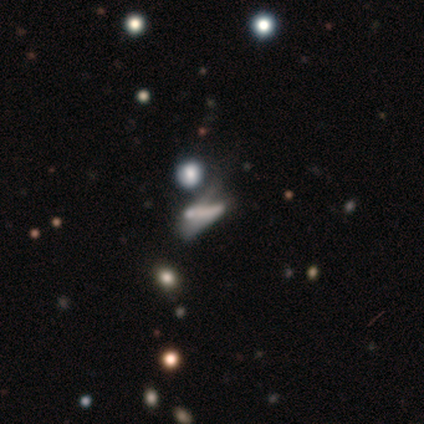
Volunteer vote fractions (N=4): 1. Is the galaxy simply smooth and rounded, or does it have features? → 75% featured or disk, 25% star or artifact, 0% smooth.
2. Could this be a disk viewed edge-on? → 67% no, 33% yes.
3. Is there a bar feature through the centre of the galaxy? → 50% strong (tied), 50% no (tied), 0% weak.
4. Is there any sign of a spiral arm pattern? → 100% no, 0% yes.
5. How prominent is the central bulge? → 100% none, 0% dominant, 0% large, 0% moderate, 0% small.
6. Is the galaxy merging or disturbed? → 67% major disturbance, 33% none, 0% minor disturbance, 0% merger.